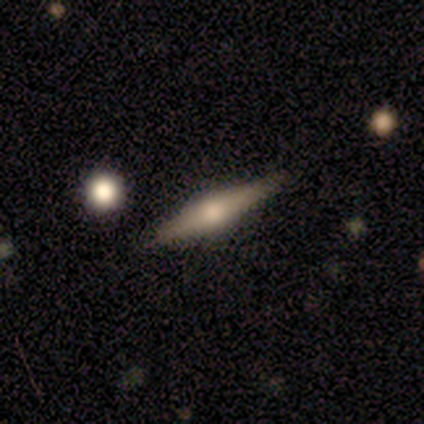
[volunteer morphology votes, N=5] Overall: featured or disk (60%; smooth 40%). Edge-on disk: yes (100%). Edge-on bulge: rounded (100%). Merging: none (100%).